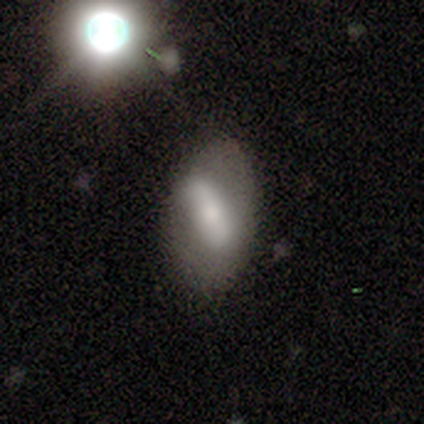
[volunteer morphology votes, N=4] Overall: smooth (50%; featured or disk 25%). How rounded: in between (100%). Merging: minor disturbance (67%; none 33%).